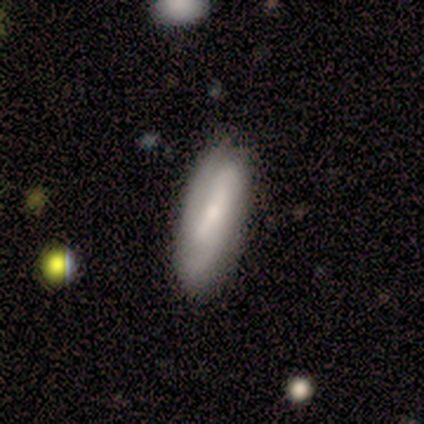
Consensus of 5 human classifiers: Smooth or featured: featured or disk — 80% (smooth — 20%)
Edge-on disk: no — 100%
Bar: weak — 75% (strong — 25%)
Spiral arms: yes — 75% (no — 25%)
Spiral winding: medium — 100%
Spiral arm count: 2 — 67% (3 — 33%)
Bulge size: small — 75% (moderate — 25%)
Merging: none — 80% (minor disturbance — 20%)